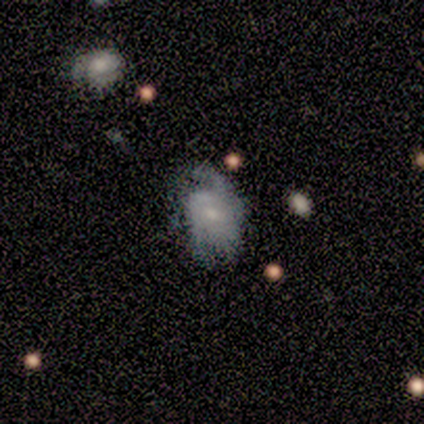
Volunteers were most divided on "merging": none: 39%, minor disturbance: 33%, major disturbance: 22%, merger: 6%. Remaining: edge-on disk — no (100%); spiral arms — yes (93%); smooth or featured — featured or disk (76%); bulge size — small (68%); bar — no (64%); spiral winding — tight (42%); spiral arm count — can't tell (38%).